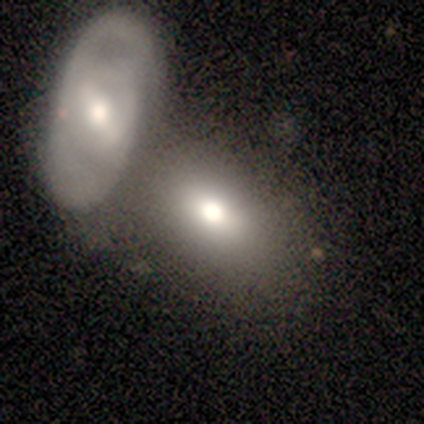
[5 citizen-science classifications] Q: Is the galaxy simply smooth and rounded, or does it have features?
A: smooth — 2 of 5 (40%, tied with featured or disk).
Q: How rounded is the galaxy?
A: in between — 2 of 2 (100%).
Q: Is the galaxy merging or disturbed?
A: merger — 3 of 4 (75%).